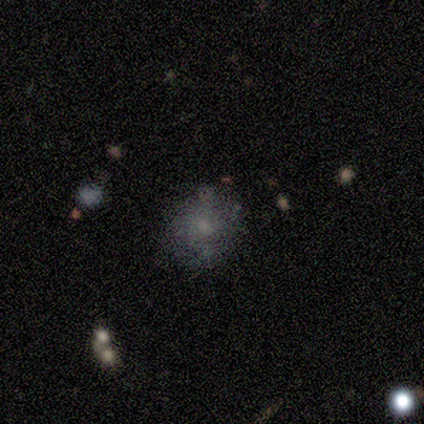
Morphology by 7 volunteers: smooth-or-featured: smooth: 43% (tied) | featured or disk: 43% (tied) | star or artifact: 14%
  how-rounded: in between: 67% | round: 33% | cigar-shaped: 0%
  merging: minor disturbance: 67% | none: 17% | merger: 17% | major disturbance: 0%